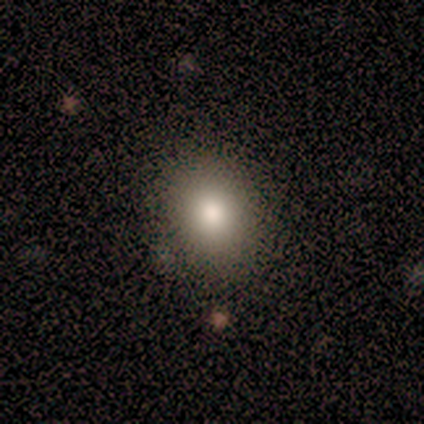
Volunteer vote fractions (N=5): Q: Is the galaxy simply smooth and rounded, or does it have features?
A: smooth — 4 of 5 (80%).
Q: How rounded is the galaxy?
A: in between — 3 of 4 (75%).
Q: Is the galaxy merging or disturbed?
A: none — 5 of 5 (100%).